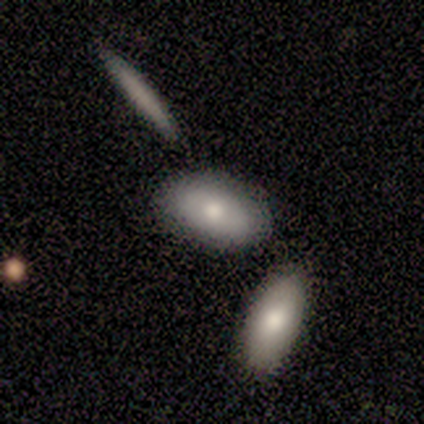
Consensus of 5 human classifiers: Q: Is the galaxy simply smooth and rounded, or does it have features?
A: smooth — 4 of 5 (80%).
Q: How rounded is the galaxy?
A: in between — 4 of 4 (100%).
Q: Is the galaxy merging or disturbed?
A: none — 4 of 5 (80%).